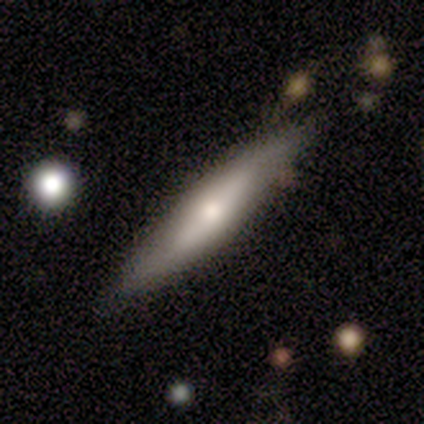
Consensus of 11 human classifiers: Smooth or featured?
  - featured or disk: 55% *
  - smooth: 36%
  - star or artifact: 9%
Edge-on disk?
  - yes: 100% *
  - no: 0%
Edge-on bulge?
  - rounded: 67% *
  - none: 33%
  - boxy: 0%
Merging?
  - none: 90% *
  - merger: 10%
  - minor disturbance: 0%
  - major disturbance: 0%